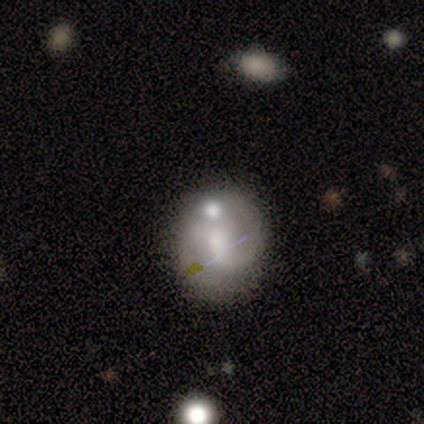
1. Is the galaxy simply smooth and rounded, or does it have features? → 75% smooth, 25% featured or disk, 0% star or artifact.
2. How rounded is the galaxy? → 67% in between, 33% round, 0% cigar-shaped.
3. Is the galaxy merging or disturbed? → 50% none, 25% merger, 12% minor disturbance, 12% major disturbance.